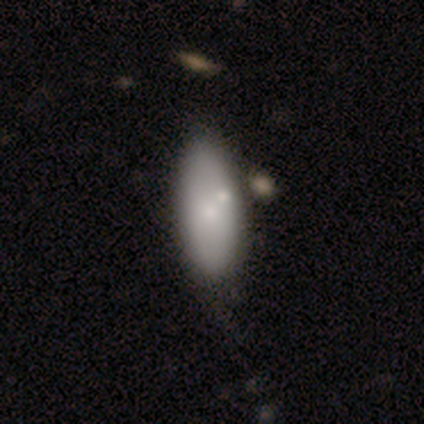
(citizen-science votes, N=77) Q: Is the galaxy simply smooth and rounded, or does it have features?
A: smooth — 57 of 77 (74%).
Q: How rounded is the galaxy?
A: in between — 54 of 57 (95%).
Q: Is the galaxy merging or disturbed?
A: none — 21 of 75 (28%).